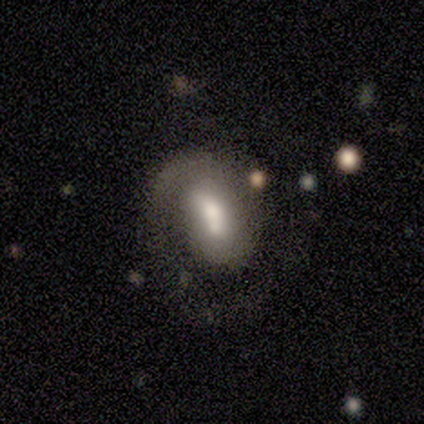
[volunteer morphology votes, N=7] This appears to be a featured or disk galaxy (57%) with no bar (50%), 1 (50%) tight (50%) spiral arms (100%) and a moderate central bulge (50%, tied with small). Merging: minor disturbance (29%, tied with major disturbance and merger).